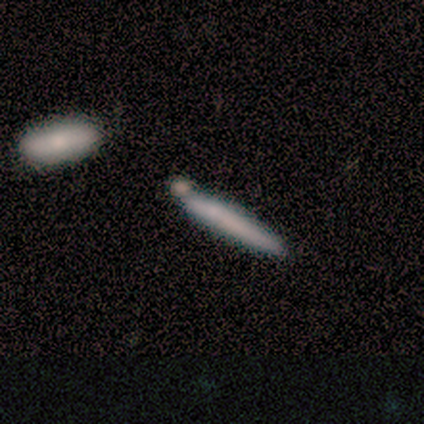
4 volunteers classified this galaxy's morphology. Smooth or featured? smooth (100%)
How rounded? cigar-shaped (100%)
Merging? none (50%)